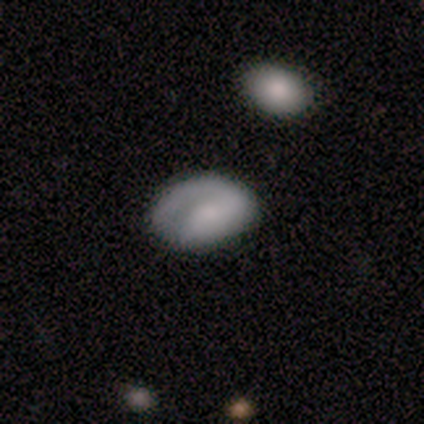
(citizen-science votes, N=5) Smooth or featured? 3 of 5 (60%) said smooth. How rounded? 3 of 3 (100%) said in between. Merging? 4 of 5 (80%) said none.